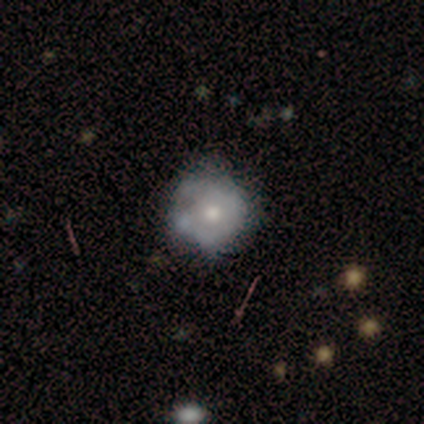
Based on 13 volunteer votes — Smooth or featured?
  - featured or disk: 62% *
  - smooth: 38%
  - star or artifact: 0%
Edge-on disk?
  - no: 100% *
  - yes: 0%
Bar?
  - no: 88% *
  - weak: 12%
  - strong: 0%
Spiral arms?
  - no: 100% *
  - yes: 0%
Bulge size?
  - moderate: 50% * (tied)
  - small: 50% * (tied)
  - dominant: 0%
  - large: 0%
  - none: 0%
Merging?
  - minor disturbance: 46% *
  - none: 38%
  - major disturbance: 15%
  - merger: 0%